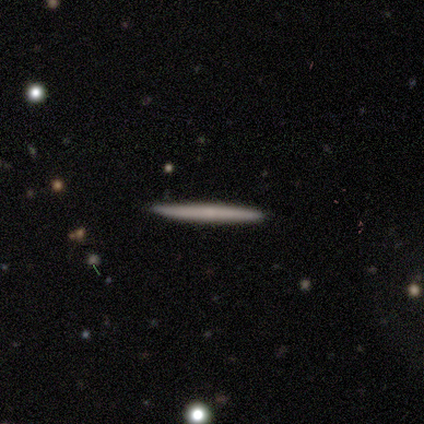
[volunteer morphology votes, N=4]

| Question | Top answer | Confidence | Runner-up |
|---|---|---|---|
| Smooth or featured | featured or disk | 50% | smooth (25%) |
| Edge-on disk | yes | 100% | — |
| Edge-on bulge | none | 100% | — |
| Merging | none | 100% | — |